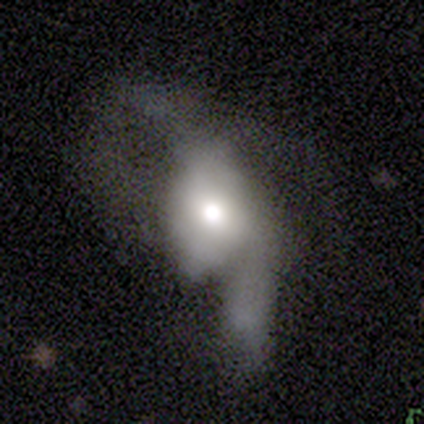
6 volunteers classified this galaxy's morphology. This appears to be a smooth galaxy with no disk features (67%) that is in between round and cigar-shaped (100%). Merging: major disturbance (83%).